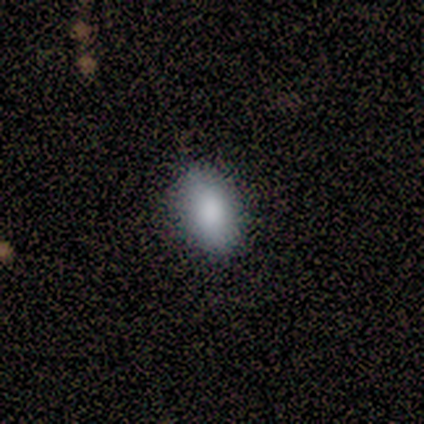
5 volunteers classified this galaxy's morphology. This appears to be a smooth galaxy with no disk features (100%) that is in between round and cigar-shaped (80%). Merging: none (100%).